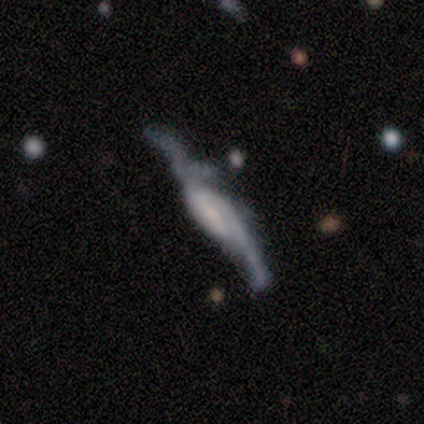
This appears to be a featured or disk galaxy (100%) with a weak bar (50%, tied with no), 2 (100%) medium (67%) spiral arms (75%) and a small central bulge (75%). Merging: none (80%).